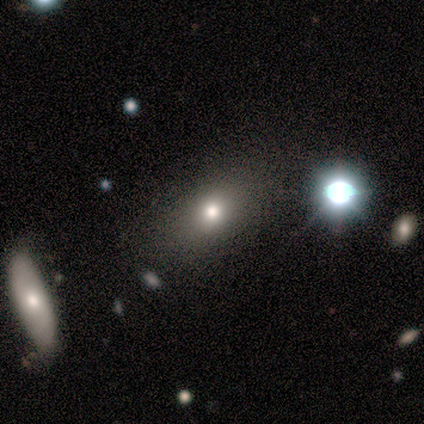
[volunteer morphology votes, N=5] smooth_or_featured: featured or disk (p=0.40) [tied with: star or artifact p=0.40]
disk_edge_on: no (p=1.00)
bar: no (p=1.00)
has_spiral_arms: no (p=1.00)
bulge_size: dominant (p=0.50) [tied with: small p=0.50]
merging: none (p=1.00)